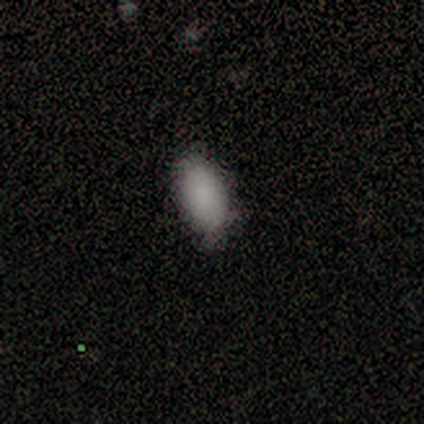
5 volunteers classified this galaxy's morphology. Smooth or featured?
  - smooth: 80% *
  - featured or disk: 20%
  - star or artifact: 0%
How rounded?
  - in between: 100% *
  - round: 0%
  - cigar-shaped: 0%
Merging?
  - none: 60% *
  - minor disturbance: 20%
  - major disturbance: 20%
  - merger: 0%